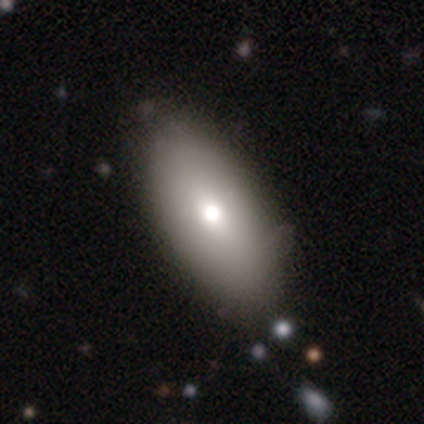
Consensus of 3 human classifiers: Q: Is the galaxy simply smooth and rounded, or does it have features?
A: smooth — 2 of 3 (67%).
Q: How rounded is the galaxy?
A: in between — 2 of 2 (100%).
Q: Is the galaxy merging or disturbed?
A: none — 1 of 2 (50%, tied with minor disturbance).